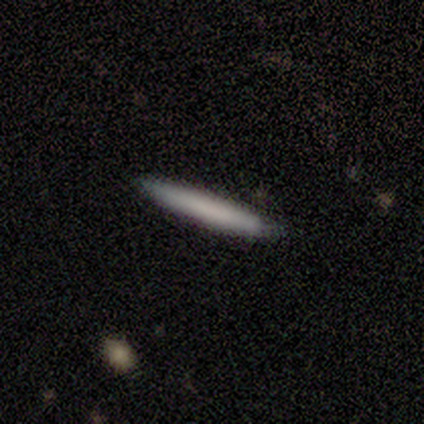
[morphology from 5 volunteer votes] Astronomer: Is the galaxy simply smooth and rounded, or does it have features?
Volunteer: smooth — 60% (runner-up: featured or disk, 40%).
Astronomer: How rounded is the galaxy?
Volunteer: cigar-shaped — 100%.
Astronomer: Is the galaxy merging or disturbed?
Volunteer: none — 80%.